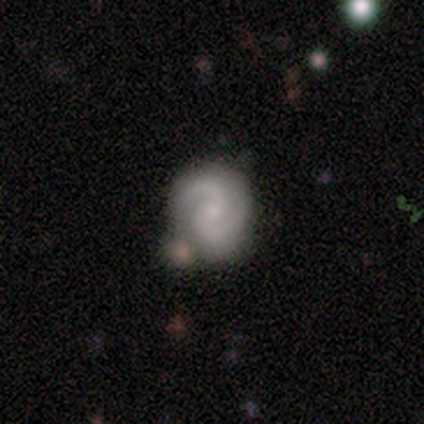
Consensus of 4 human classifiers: Overall: featured or disk (100%). Edge-on disk: no (100%). Bar: weak (50%, tied with no). Spiral arms: yes (100%). Spiral arm count: 2 (100%). Spiral winding: tight (50%, tied with medium). Bulge size: small (75%). Merging: none (100%).